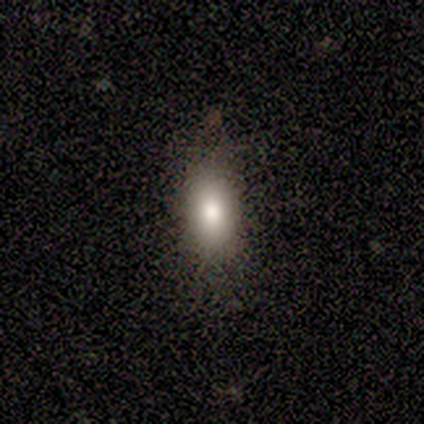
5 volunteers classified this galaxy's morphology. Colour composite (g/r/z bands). It shows a smooth galaxy with no disk features (60%) that is in between round and cigar-shaped (100%). Merging: none (100%).